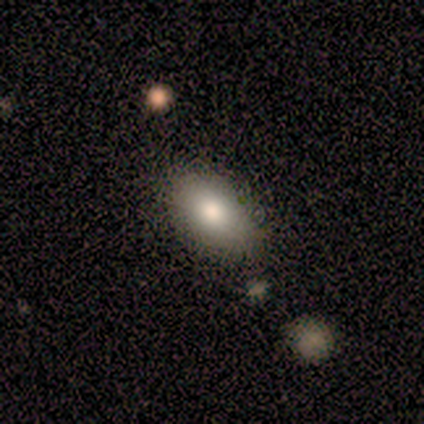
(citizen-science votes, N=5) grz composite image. It shows a smooth galaxy with no disk features (100%) that is in between round and cigar-shaped (100%). Merging: none (100%).